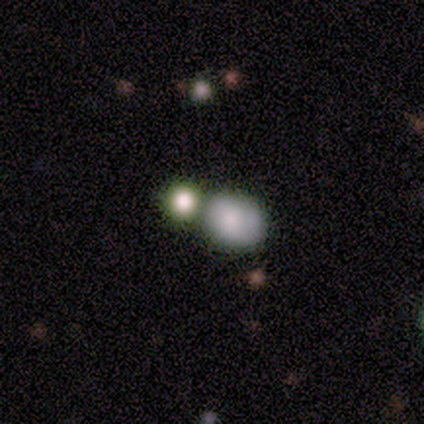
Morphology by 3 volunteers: A smooth galaxy with no disk features (67%) that is round (50%, tied with in between). Merging: merger (100%).